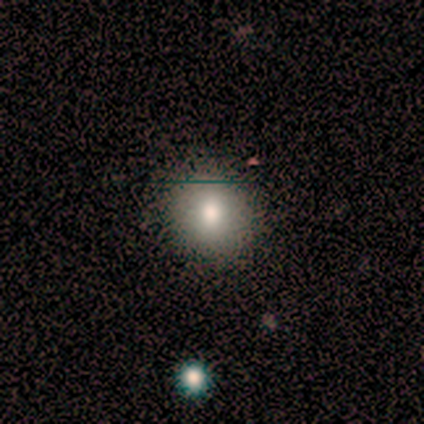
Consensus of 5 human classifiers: This is clearly a smooth galaxy (80%). How rounded: clearly round (100%). Merging: clearly none (100%).